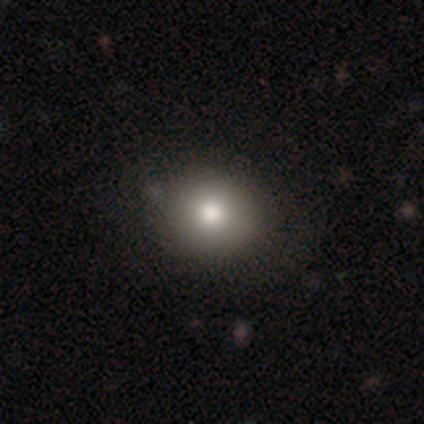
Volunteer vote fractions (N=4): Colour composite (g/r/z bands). It shows a smooth galaxy with no disk features (75%) that is round (100%). Merging: none (100%).